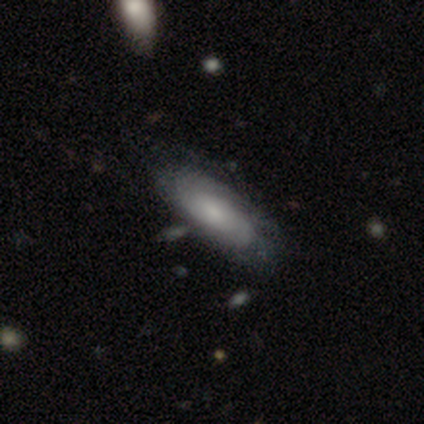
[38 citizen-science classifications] smooth_or_featured: featured or disk (p=0.58) [alt: smooth p=0.39]
disk_edge_on: no (p=0.91) [alt: yes p=0.09]
bar: no (p=0.70) [alt: weak p=0.30]
has_spiral_arms: yes (p=0.70) [alt: no p=0.30]
spiral_winding: tight (p=0.71) [alt: medium p=0.21]
spiral_arm_count: can't tell (p=0.64) [alt: 2 p=0.29]
bulge_size: small (p=0.45) [alt: moderate p=0.25]
merging: none (p=0.41) [alt: minor disturbance p=0.19]